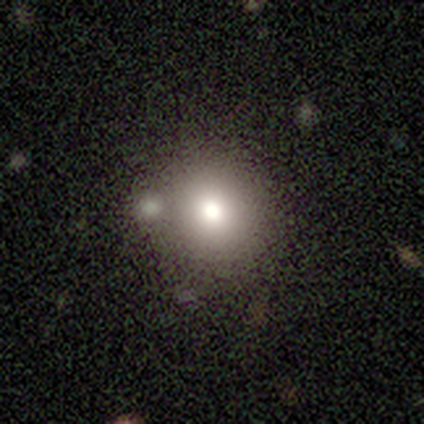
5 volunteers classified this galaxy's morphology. This appears to be a smooth galaxy with no disk features (80%) that is round (100%). Merging: none (100%).